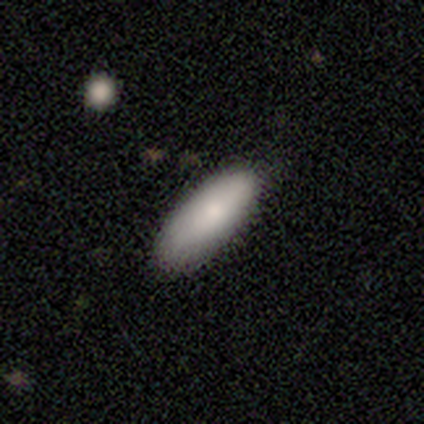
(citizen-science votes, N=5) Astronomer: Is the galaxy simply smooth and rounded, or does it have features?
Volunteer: smooth — 80%.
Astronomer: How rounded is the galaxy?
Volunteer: in between — 100%.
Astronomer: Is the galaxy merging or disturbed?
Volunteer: none — 80%.